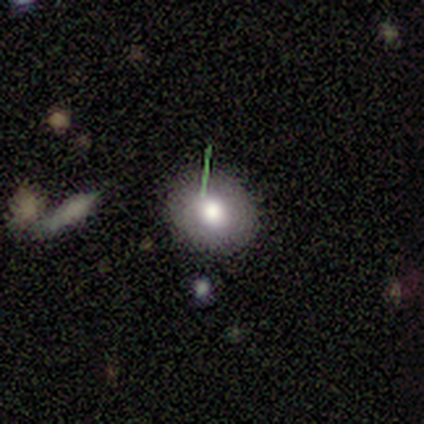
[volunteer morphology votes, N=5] This appears to be a smooth galaxy with no disk features (60%) that is round (100%). Merging: none (100%).